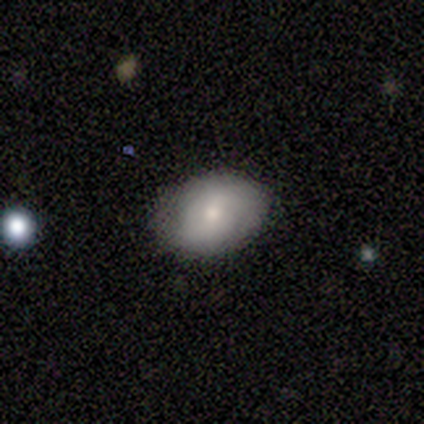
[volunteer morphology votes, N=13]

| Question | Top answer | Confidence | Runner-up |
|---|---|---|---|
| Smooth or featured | smooth | 69% | featured or disk (23%) |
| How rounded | in between | 78% | round (22%) |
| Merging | none | 75% | minor disturbance (17%) |